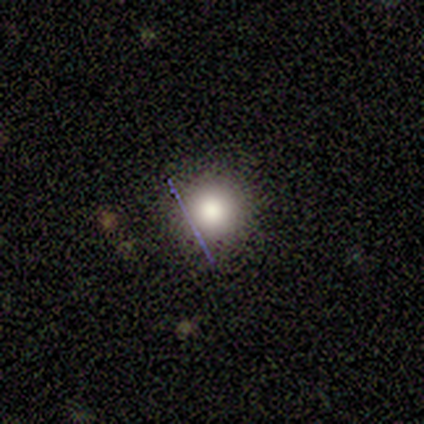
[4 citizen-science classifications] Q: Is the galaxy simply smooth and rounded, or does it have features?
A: smooth — 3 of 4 (75%).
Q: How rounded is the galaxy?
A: round — 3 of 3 (100%).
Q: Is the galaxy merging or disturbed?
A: none — 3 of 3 (100%).